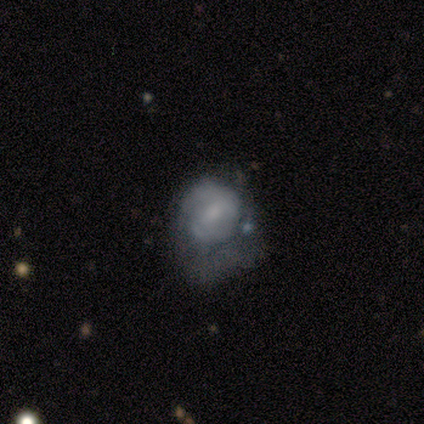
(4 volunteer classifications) This is possibly a featured or disk galaxy (50%). It is clearly not viewed edge-on (100%). Bar: clearly no (100%). Spiral arm pattern: clearly no (100%). Central bulge: possibly moderate (50%, tied with small). Merging: likely major disturbance (67%).